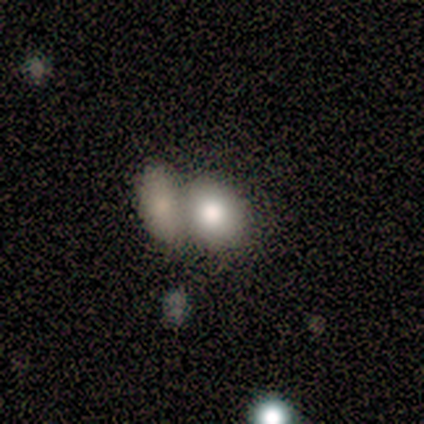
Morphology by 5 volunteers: Smooth or featured? smooth (100%)
How rounded? in between (100%)
Merging? merger (80%)